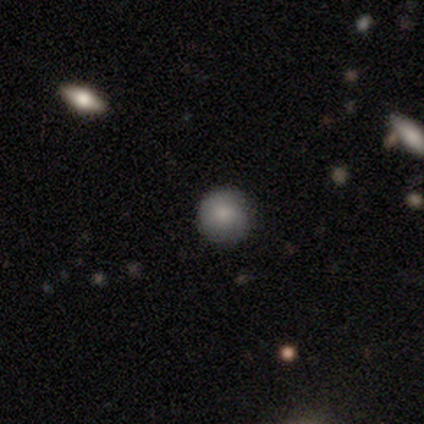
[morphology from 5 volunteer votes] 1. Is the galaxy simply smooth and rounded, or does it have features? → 80% smooth, 20% featured or disk, 0% star or artifact.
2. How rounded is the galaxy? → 100% round, 0% in between, 0% cigar-shaped.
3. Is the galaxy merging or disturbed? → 80% none, 20% minor disturbance, 0% major disturbance, 0% merger.